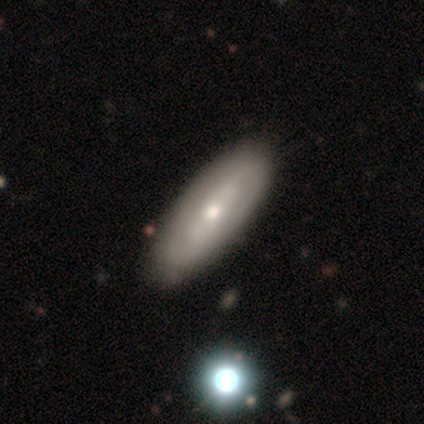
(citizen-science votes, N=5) A smooth galaxy with no disk features (80%) that is in between round and cigar-shaped (75%). Merging: none (100%).